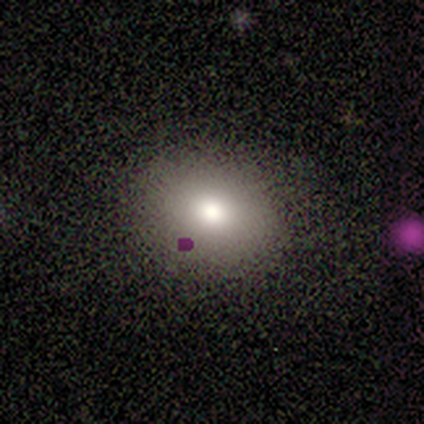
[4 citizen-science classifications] Volunteers were most divided on "smooth or featured": smooth: 75%, featured or disk: 25%, star or artifact: 0%. More confident: how rounded — round (100%); merging — none (100%).